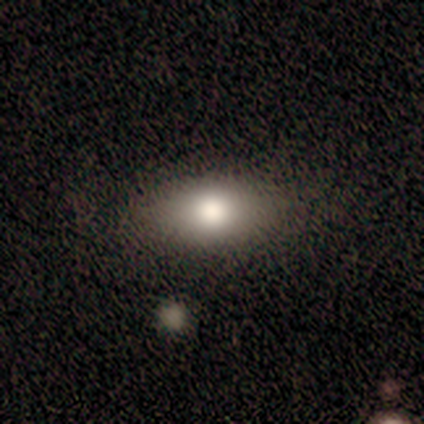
This appears to be a smooth galaxy with no disk features (78%) that is in between round and cigar-shaped (86%). Merging: none (71%).